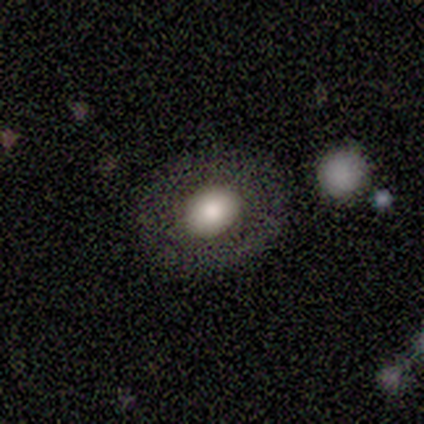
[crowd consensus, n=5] smooth 100%, featured or disk 0%, star or artifact 0%. Down the decision tree: how rounded — round (80%); merging — none (80%).